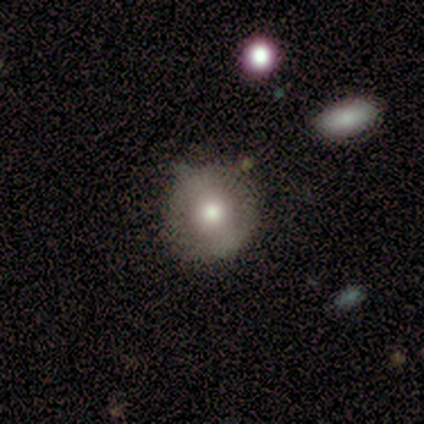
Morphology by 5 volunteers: Q: Smooth or featured?
A: featured or disk (60%); runner-up: smooth (40%)
Q: Edge-on disk?
A: no (100%)
Q: Bar?
A: no (67%); runner-up: weak (33%)
Q: Spiral arms?
A: no (100%)
Q: Bulge size?
A: moderate (100%)
Q: Merging?
A: none (80%); runner-up: minor disturbance (20%)